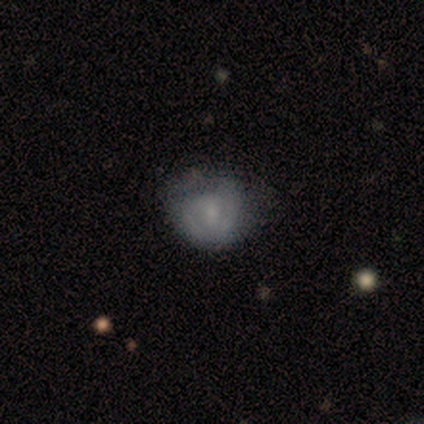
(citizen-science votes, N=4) smooth_or_featured: smooth (p=0.75) [alt: star or artifact p=0.25]
how_rounded: round (p=1.00)
merging: minor disturbance (p=1.00)